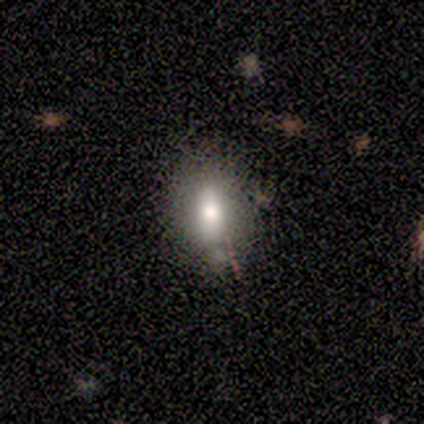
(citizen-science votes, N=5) Volunteers were most divided on "how rounded" (2-way tie): round: 50%, in between: 50%, cigar-shaped: 0%. More confident: smooth or featured — smooth (80%); merging — minor disturbance (60%).